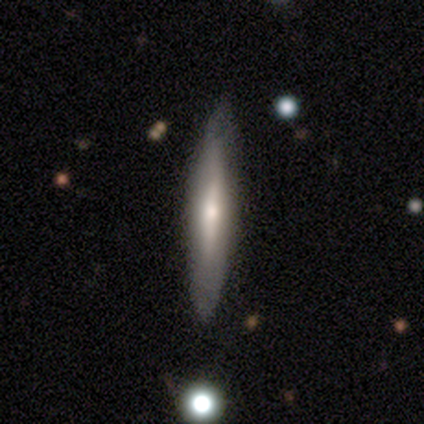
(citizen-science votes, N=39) smooth_or_featured: featured or disk (p=0.56) [alt: smooth p=0.44]
disk_edge_on: yes (p=0.95) [alt: no p=0.05]
edge_on_bulge: rounded (p=0.57) [alt: none p=0.43]
merging: none (p=0.77) [alt: minor disturbance p=0.03]